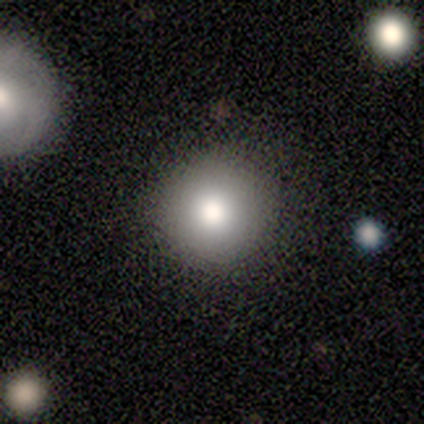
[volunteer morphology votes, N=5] smooth_or_featured: smooth (p=1.00)
how_rounded: round (p=1.00)
merging: none (p=0.80) [alt: minor disturbance p=0.20]